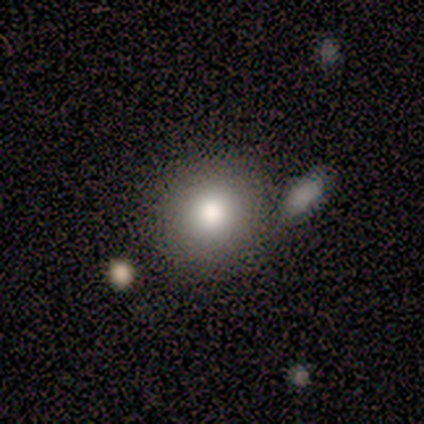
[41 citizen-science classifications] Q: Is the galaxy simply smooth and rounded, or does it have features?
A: smooth — 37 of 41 (90%).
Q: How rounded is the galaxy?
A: round — 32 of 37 (86%).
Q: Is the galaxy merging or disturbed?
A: none — 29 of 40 (72%).